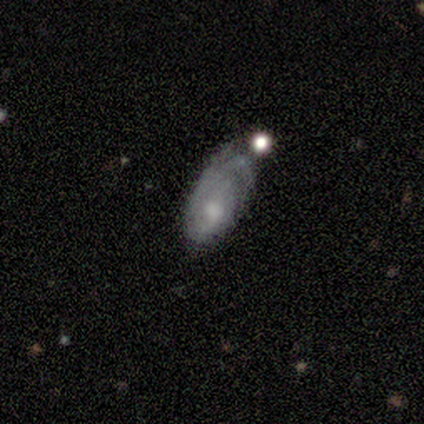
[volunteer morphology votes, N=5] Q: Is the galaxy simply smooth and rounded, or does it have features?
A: featured or disk — 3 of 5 (60%).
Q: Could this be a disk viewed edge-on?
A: no — 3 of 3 (100%).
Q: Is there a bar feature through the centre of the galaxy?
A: no — 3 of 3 (100%).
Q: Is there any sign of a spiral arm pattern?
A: yes — 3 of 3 (100%).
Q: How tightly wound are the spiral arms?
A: tight — 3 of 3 (100%).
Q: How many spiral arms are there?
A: can't tell — 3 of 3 (100%).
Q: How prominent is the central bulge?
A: small — 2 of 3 (67%).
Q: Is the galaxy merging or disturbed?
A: major disturbance — 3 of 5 (60%).